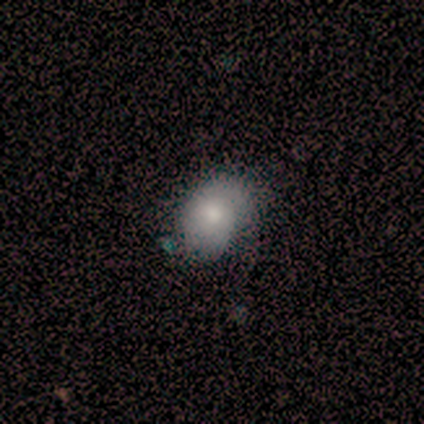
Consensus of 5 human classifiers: Smooth or featured: featured or disk — 60% (smooth — 40%)
Edge-on disk: no — 100%
Bar: no — 100%
Spiral arms: yes — 100%
Spiral winding: tight — 67% (medium — 33%)
Spiral arm count: 1 — 33% (tied with 2 — 33%; can't tell — 33%)
Bulge size: moderate — 100%
Merging: none — 80% (minor disturbance — 20%)